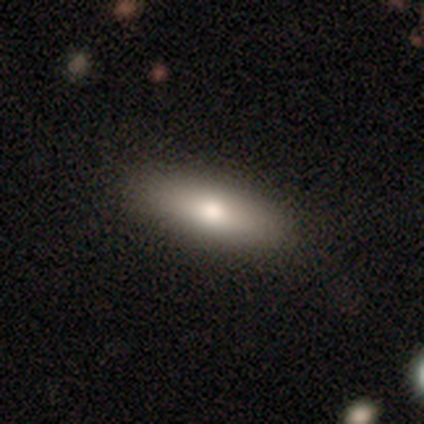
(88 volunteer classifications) Q: Smooth or featured?
A: smooth (77%); runner-up: featured or disk (17%)
Q: How rounded?
A: in between (54%); runner-up: cigar-shaped (44%)
Q: Merging?
A: none (84%); runner-up: minor disturbance (12%)